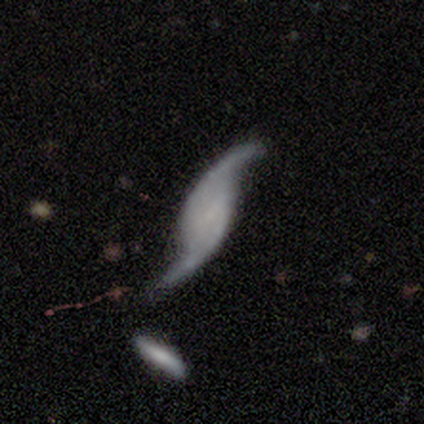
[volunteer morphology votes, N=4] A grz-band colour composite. It shows a featured or disk galaxy (100%) with no bar (50%), 2 (75%) loose (75%) spiral arms (100%) and a small central bulge (50%, tied with none). Merging: none (100%).